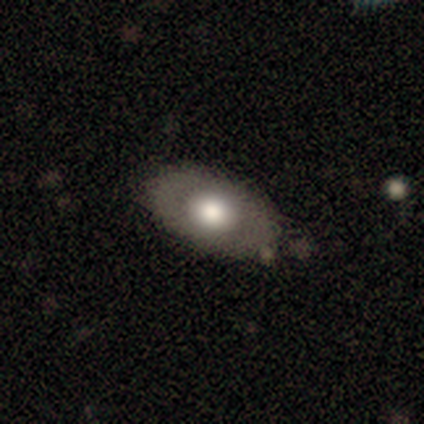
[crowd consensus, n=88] This appears to be a smooth galaxy with no disk features (57%) that is in between round and cigar-shaped (92%). Merging: none (76%).